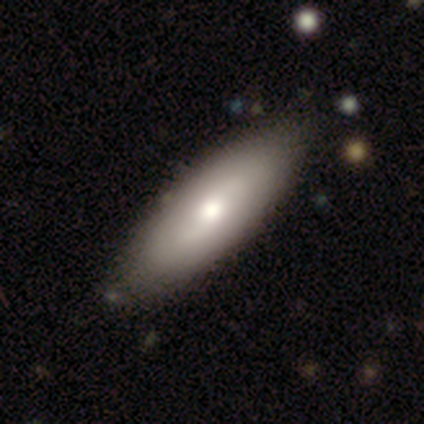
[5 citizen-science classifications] smooth 60%, featured or disk 40%, star or artifact 0%. Down the decision tree: how rounded — in between (67%); merging — none (100%).